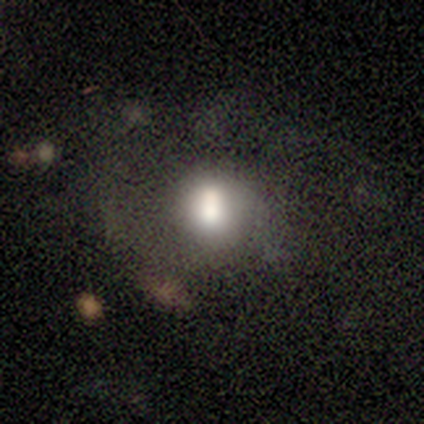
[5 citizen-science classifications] Smooth or featured? 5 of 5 (100%) said smooth. How rounded? 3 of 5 (60%) said in between. Merging? 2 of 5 (40%, tied with merger) said none.